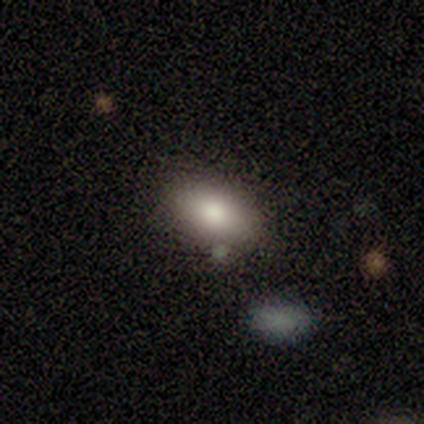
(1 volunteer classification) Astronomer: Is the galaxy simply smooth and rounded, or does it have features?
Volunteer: smooth — 100%.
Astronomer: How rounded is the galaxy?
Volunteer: in between — 100%.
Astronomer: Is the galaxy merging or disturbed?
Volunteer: none — 100%.